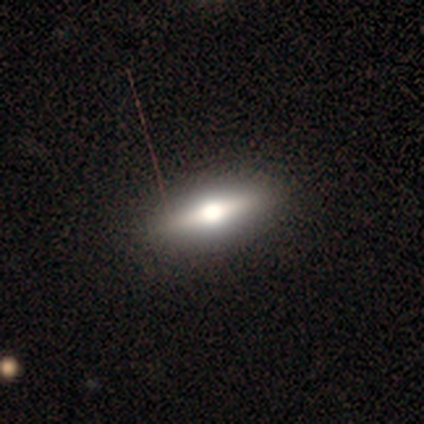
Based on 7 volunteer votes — smooth-or-featured: featured or disk: 86% | smooth: 14% | star or artifact: 0%
  disk-edge-on: yes: 100% | no: 0%
    edge-on-bulge: rounded: 100% | boxy: 0% | none: 0%
  merging: none: 100% | minor disturbance: 0% | major disturbance: 0% | merger: 0%